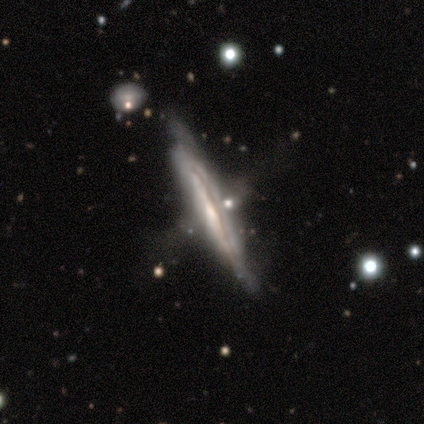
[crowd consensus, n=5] Smooth or featured?
  - featured or disk: 60% *
  - smooth: 40%
  - star or artifact: 0%
Edge-on disk?
  - yes: 67% *
  - no: 33%
Edge-on bulge?
  - none: 50% * (tied)
  - rounded: 50% * (tied)
  - boxy: 0%
Merging?
  - none: 40% *
  - minor disturbance: 20%
  - major disturbance: 20%
  - merger: 20%